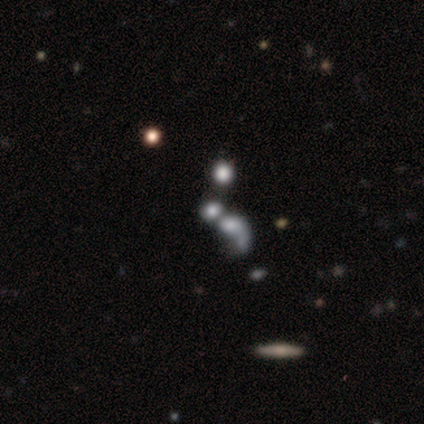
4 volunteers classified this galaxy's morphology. smooth 50% (tied), featured or disk 50% (tied), star or artifact 0%. Down the decision tree: how rounded — round (100%); merging — none (50%).